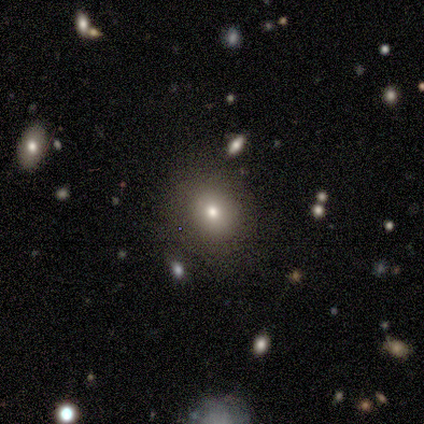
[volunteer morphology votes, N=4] Smooth or featured: smooth — 100%
How rounded: round — 100%
Merging: none — 100%